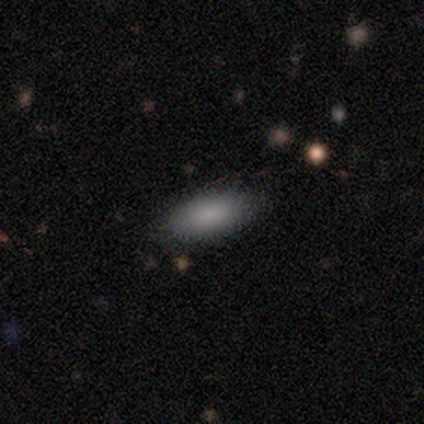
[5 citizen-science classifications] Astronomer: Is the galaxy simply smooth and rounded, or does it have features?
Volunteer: smooth — 60% (runner-up: featured or disk, 40%).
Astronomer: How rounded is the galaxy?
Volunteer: in between — 100%.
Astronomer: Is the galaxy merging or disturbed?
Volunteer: none — 80%.